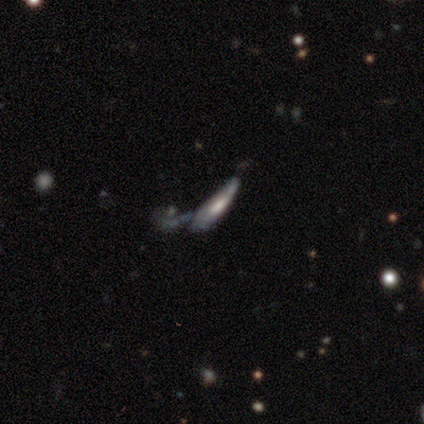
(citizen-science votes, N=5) This is likely a smooth galaxy (60%). How rounded: clearly in between (100%). Merging: likely major disturbance (60%).